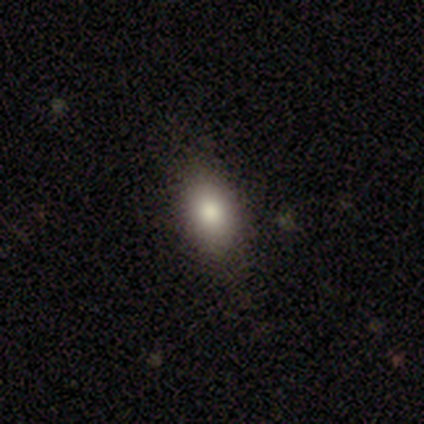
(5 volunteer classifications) A smooth galaxy with no disk features (100%) that is in between round and cigar-shaped (80%). Merging: none (80%).